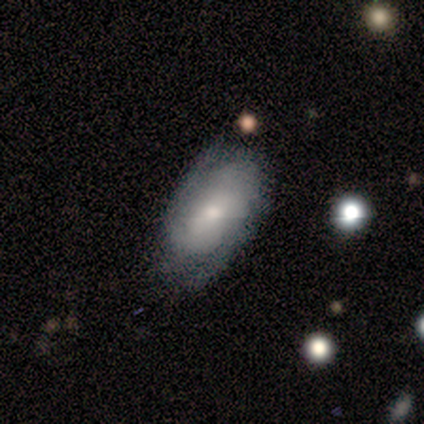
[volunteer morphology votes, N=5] Volunteers were most divided on "merging": none: 60%, major disturbance: 40%, minor disturbance: 0%, merger: 0%. More confident: edge-on disk — no (100%); spiral winding — tight (100%); smooth or featured — featured or disk (80%); bar — no (75%); spiral arms — yes (75%); bulge size — small (75%); spiral arm count — 2 (67%).